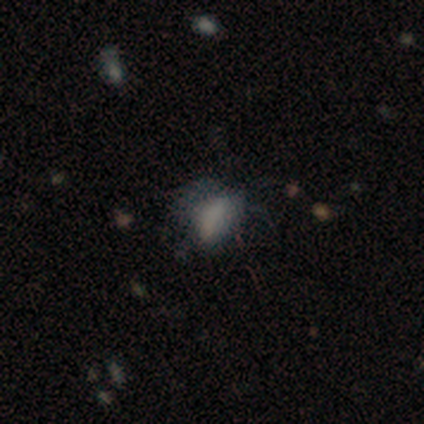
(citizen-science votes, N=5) smooth-or-featured: smooth: 60% | featured or disk: 20% | star or artifact: 20%
  how-rounded: in between: 100% | round: 0% | cigar-shaped: 0%
  merging: minor disturbance: 50% | none: 25% | major disturbance: 25% | merger: 0%